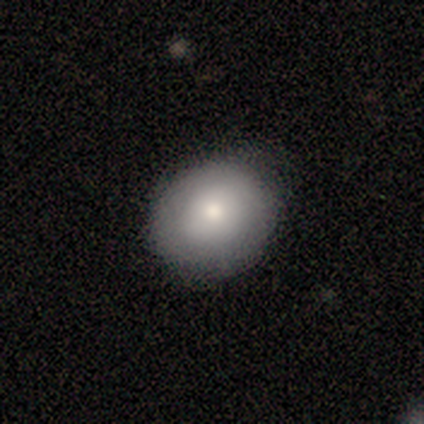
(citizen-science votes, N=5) smooth_or_featured: smooth (p=0.80) [alt: featured or disk p=0.20]
how_rounded: round (p=0.50) [tied with: in between p=0.50]
merging: none (p=0.80) [alt: minor disturbance p=0.20]